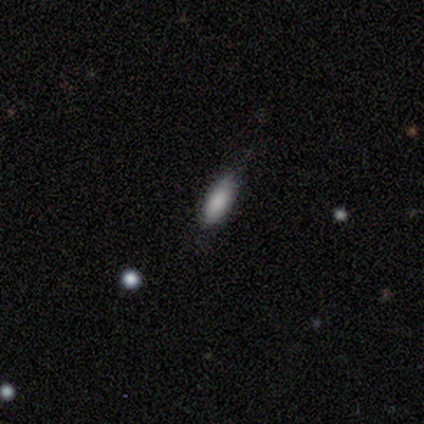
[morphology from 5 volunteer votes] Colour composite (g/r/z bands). It shows a smooth galaxy with no disk features (100%) that is in between round and cigar-shaped (80%). Merging: none (60%).